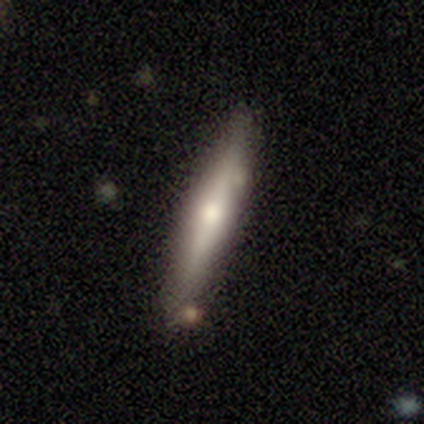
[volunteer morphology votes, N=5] smooth-or-featured: featured or disk: 80% | smooth: 20% | star or artifact: 0%
  disk-edge-on: yes: 100% | no: 0%
    edge-on-bulge: rounded: 100% | boxy: 0% | none: 0%
  merging: none: 100% | minor disturbance: 0% | major disturbance: 0% | merger: 0%